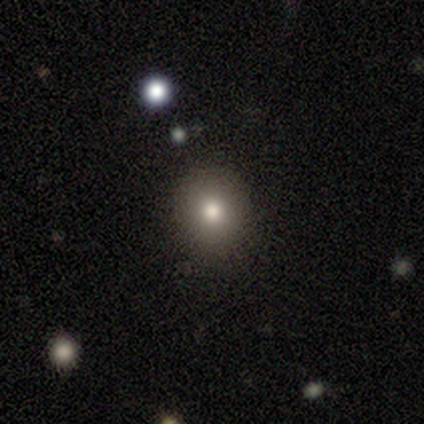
Smooth or featured? smooth (75%)
How rounded? round (67%)
Merging? none (100%)